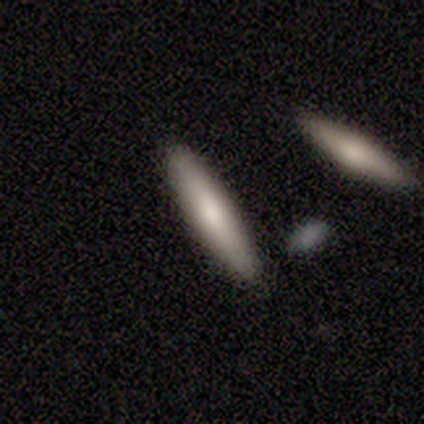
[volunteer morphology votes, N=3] A smooth galaxy with no disk features (67%) that is cigar-shaped (100%). Merging: none (100%).